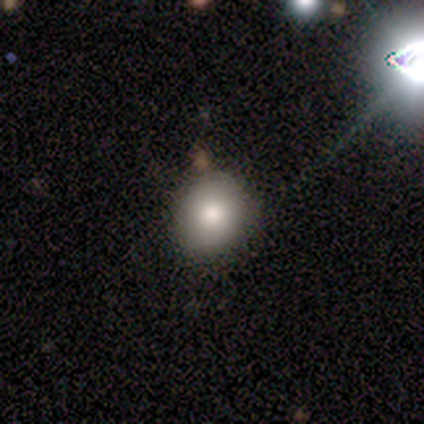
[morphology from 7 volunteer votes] Smooth or featured? smooth (71%)
How rounded? round (100%)
Merging? none (100%)